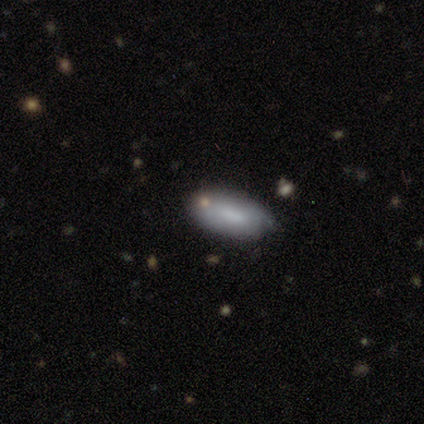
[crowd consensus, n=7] Q: Smooth or featured?
A: smooth (71%); runner-up: featured or disk (29%)
Q: How rounded?
A: in between (100%)
Q: Merging?
A: none (57%); runner-up: minor disturbance (29%)